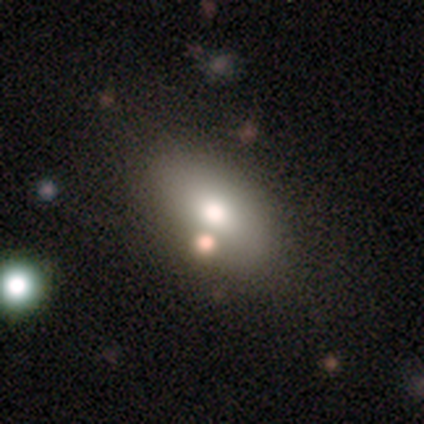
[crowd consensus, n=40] Volunteers were most divided on "merging": none: 54%, minor disturbance: 13%, merger: 8%, major disturbance: 0%. More confident: how rounded — in between (88%); smooth or featured — smooth (82%).